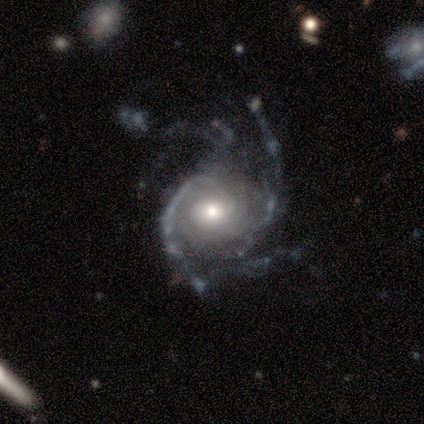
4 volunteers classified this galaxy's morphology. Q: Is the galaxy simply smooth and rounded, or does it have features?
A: featured or disk — 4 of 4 (100%).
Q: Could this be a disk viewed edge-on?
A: no — 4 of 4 (100%).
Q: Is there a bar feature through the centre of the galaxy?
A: no — 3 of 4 (75%).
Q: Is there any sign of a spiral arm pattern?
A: yes — 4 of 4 (100%).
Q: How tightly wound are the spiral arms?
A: tight — 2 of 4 (50%, tied with medium).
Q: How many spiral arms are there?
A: more than 4 — 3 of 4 (75%).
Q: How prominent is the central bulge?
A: moderate — 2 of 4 (50%).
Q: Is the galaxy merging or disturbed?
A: none — 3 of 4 (75%).